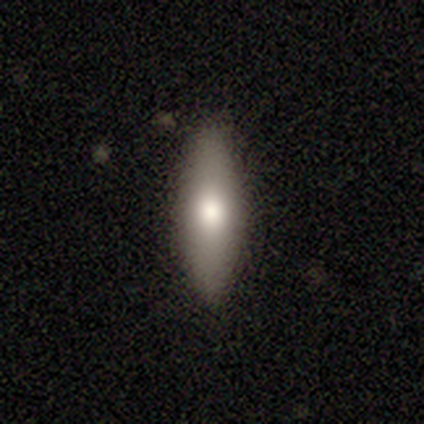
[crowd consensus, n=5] A smooth galaxy with no disk features (60%) that is in between round and cigar-shaped (67%).

Vote fractions:
- Smooth or featured? smooth: 60% / featured or disk: 40% / star or artifact: 0%
- How rounded? in between: 67% / cigar-shaped: 33% / round: 0%
- Merging? none: 100% / minor disturbance: 0% / major disturbance: 0% / merger: 0%